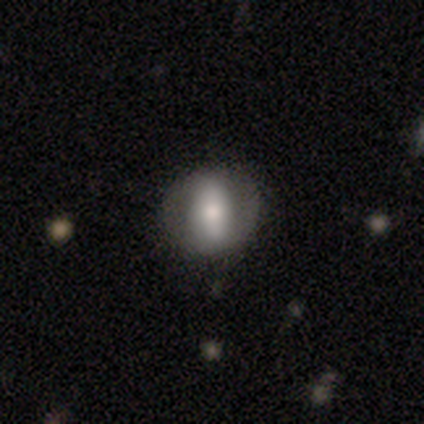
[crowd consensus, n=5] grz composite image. It shows a featured or disk galaxy (80%) with a strong bar (67%), no spiral arms (100%) and a moderate central bulge (100%). Merging: none (80%).